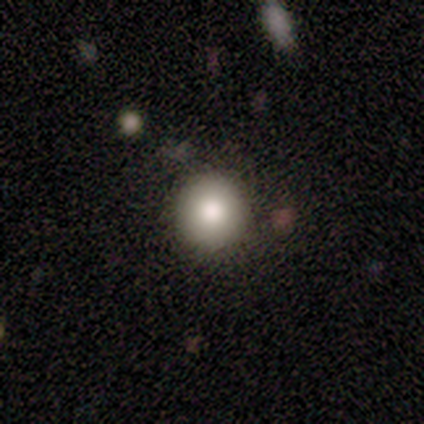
This appears to be a smooth galaxy with no disk features (40%, tied with star or artifact) that is round (100%). Merging: none (67%).